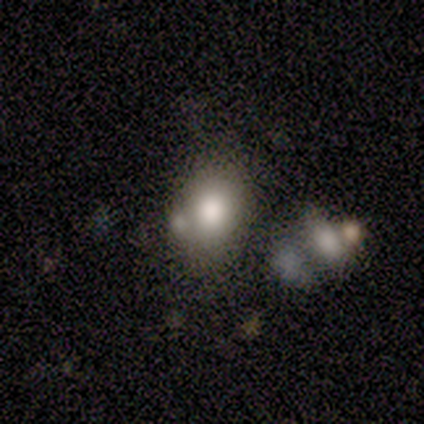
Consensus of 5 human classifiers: Smooth or featured? 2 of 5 (40%, tied with star or artifact) said smooth. How rounded? 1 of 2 (50%, tied with in between) said round. Merging? 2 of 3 (67%) said none.